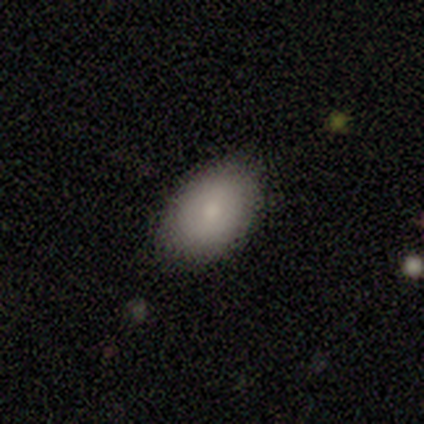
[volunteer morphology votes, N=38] type=smooth (74%); roundness=in between (96%); merging=none (78%).